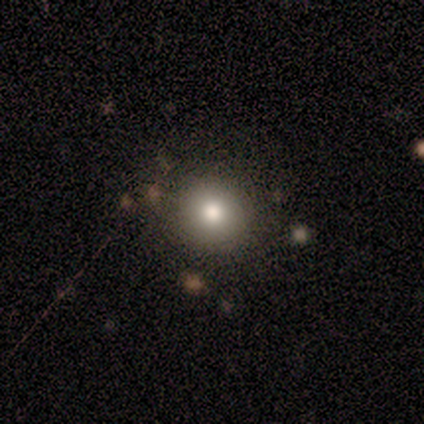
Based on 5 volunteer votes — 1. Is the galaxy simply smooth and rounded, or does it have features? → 60% smooth, 20% featured or disk, 20% star or artifact.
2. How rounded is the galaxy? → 67% round, 33% in between, 0% cigar-shaped.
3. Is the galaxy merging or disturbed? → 50% none (tied), 50% minor disturbance (tied), 0% major disturbance, 0% merger.